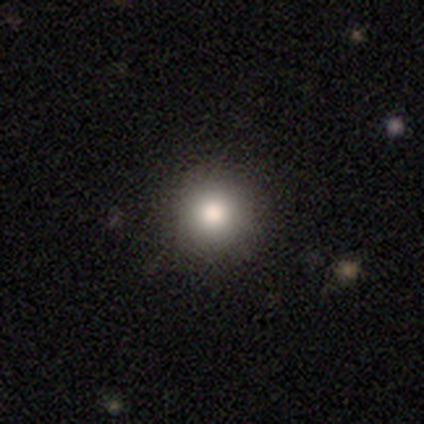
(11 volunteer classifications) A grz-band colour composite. It shows a smooth galaxy with no disk features (82%) that is round (89%). Merging: none (89%).